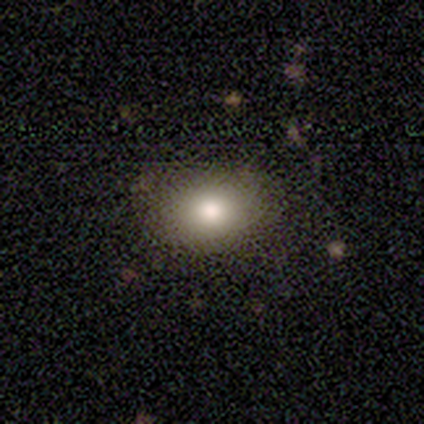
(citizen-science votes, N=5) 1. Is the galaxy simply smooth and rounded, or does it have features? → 60% smooth, 40% featured or disk, 0% star or artifact.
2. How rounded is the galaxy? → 67% in between, 33% round, 0% cigar-shaped.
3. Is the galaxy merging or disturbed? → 100% none, 0% minor disturbance, 0% major disturbance, 0% merger.